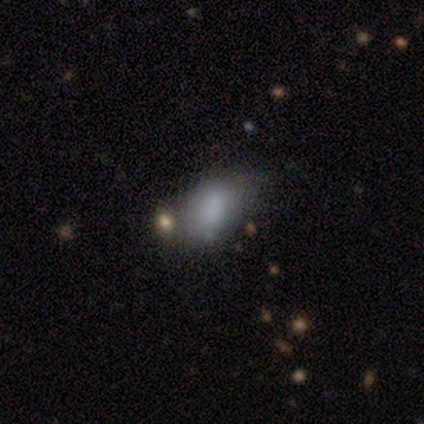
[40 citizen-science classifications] Overall: smooth (68%). How rounded: in between (93%). Merging: minor disturbance (31%; none 23%).